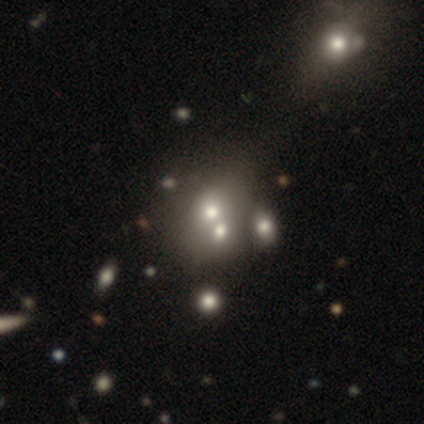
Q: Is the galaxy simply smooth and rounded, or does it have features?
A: smooth — 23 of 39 (59%).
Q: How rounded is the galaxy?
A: round — 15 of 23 (65%).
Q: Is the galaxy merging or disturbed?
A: merger — 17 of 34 (50%).